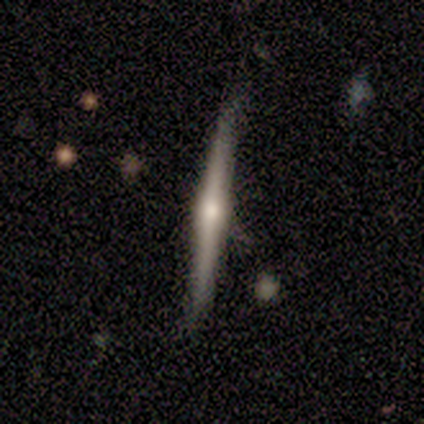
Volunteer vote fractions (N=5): Smooth or featured? 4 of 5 (80%) said featured or disk. Edge-on disk? 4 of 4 (100%) said yes. Edge-on bulge? 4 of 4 (100%) said rounded. Merging? 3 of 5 (60%) said none.